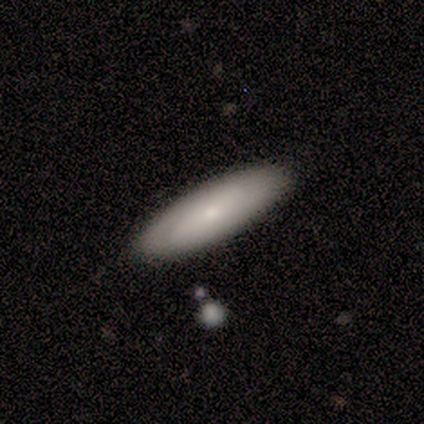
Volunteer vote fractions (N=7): This is possibly a smooth galaxy (57%). How rounded: likely cigar-shaped (75%). Merging: clearly none (86%).